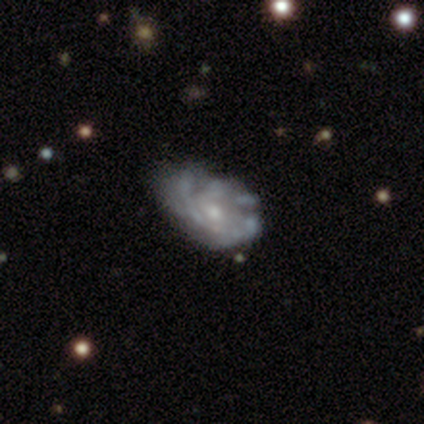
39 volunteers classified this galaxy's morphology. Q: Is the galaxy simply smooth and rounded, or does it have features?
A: featured or disk — 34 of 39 (87%).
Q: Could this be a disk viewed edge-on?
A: no — 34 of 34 (100%).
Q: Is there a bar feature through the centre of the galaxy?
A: no — 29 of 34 (85%).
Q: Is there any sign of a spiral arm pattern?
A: yes — 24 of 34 (71%).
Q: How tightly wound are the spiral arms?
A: medium — 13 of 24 (54%).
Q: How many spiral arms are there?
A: can't tell — 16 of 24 (67%).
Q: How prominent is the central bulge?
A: small — 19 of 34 (56%).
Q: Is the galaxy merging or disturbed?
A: none — 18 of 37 (49%).